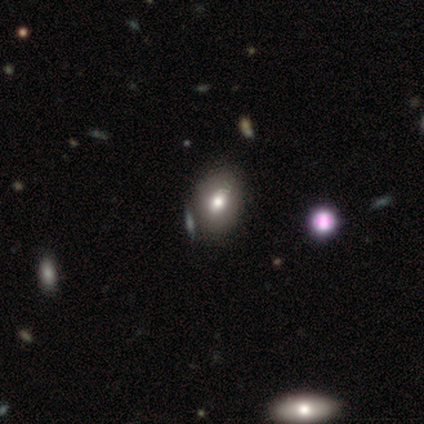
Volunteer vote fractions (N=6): smooth 67%, star or artifact 33%, featured or disk 0%. Down the decision tree: how rounded — in between (100%); merging — none (50%).